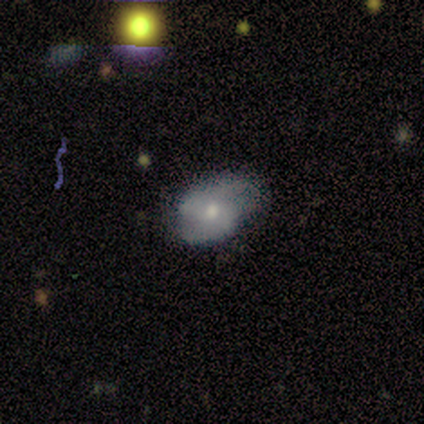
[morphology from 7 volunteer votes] Smooth or featured?
  - smooth: 57% *
  - featured or disk: 29%
  - star or artifact: 14%
How rounded?
  - in between: 100% *
  - round: 0%
  - cigar-shaped: 0%
Merging?
  - none: 67% *
  - minor disturbance: 33%
  - major disturbance: 0%
  - merger: 0%